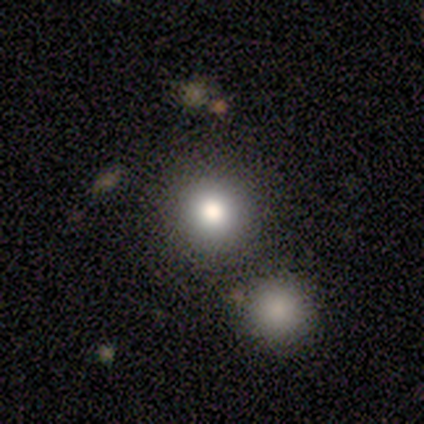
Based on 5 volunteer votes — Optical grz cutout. It shows a smooth galaxy with no disk features (80%) that is round (100%). Merging: none (60%).